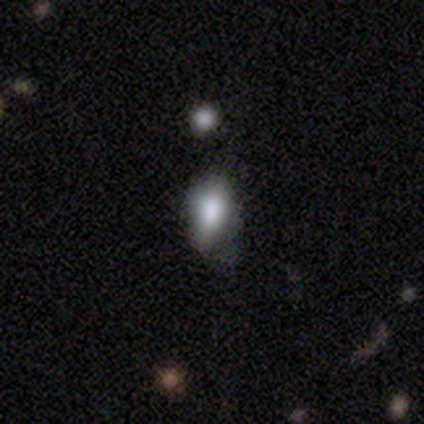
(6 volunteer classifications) Smooth or featured? 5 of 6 (83%) said smooth. How rounded? 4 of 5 (80%) said in between. Merging? 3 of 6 (50%) said minor disturbance.